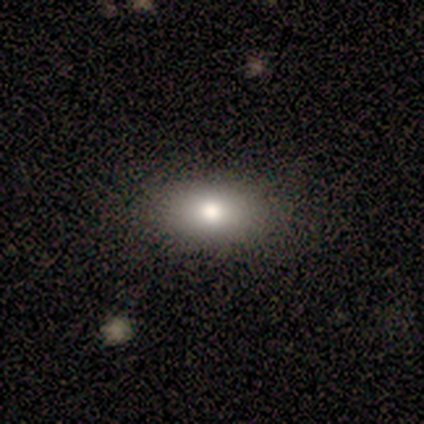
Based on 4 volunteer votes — Smooth or featured: featured or disk — 75% (smooth — 25%)
Edge-on disk: no — 100%
Bar: no — 100%
Spiral arms: no — 67% (yes — 33%)
Bulge size: moderate — 100%
Merging: none — 100%